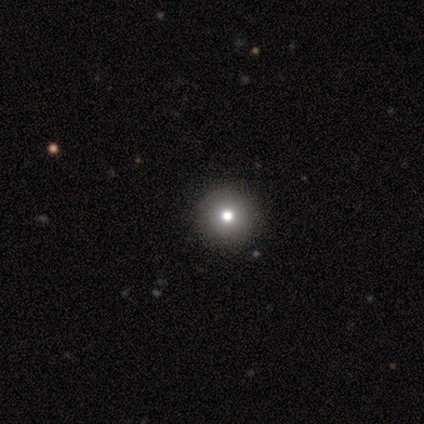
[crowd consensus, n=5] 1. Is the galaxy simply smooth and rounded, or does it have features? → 40% smooth (tied), 40% featured or disk (tied), 20% star or artifact.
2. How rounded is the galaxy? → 100% round, 0% in between, 0% cigar-shaped.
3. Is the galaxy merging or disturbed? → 75% none, 25% major disturbance, 0% minor disturbance, 0% merger.